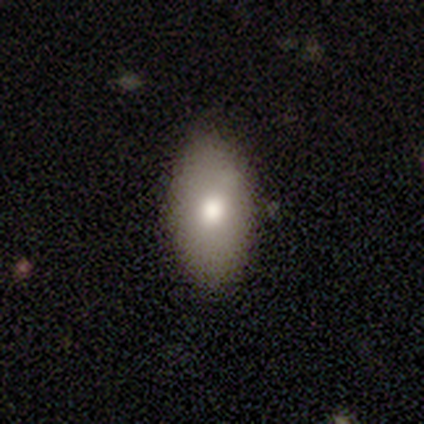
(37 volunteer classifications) A smooth galaxy with no disk features (84%) that is in between round and cigar-shaped (90%). Merging: none (86%).